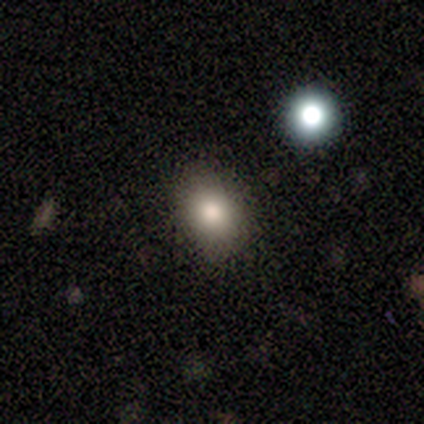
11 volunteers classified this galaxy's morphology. smooth_or_featured: smooth (p=0.73) [alt: star or artifact p=0.18]
how_rounded: round (p=0.50) [tied with: in between p=0.50]
merging: none (p=0.78) [alt: minor disturbance p=0.22]